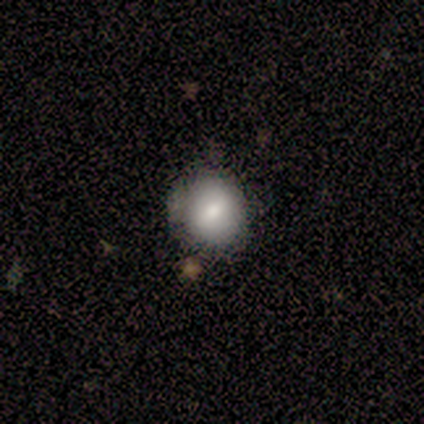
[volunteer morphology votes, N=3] Q: Smooth or featured?
A: smooth (67%); runner-up: star or artifact (33%)
Q: How rounded?
A: round (100%)
Q: Merging?
A: none (100%)